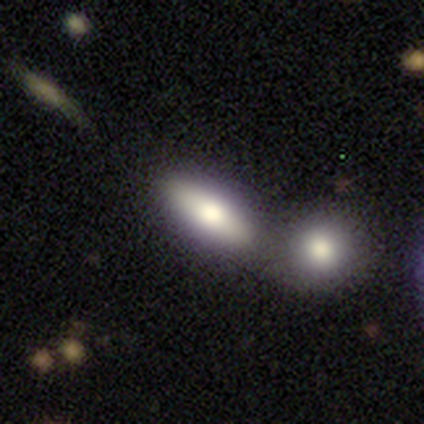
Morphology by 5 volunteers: Smooth or featured?
  - featured or disk: 60% *
  - smooth: 20%
  - star or artifact: 20%
Edge-on disk?
  - no: 67% *
  - yes: 33%
Bar?
  - weak: 50% * (tied)
  - no: 50% * (tied)
  - strong: 0%
Spiral arms?
  - no: 100% *
  - yes: 0%
Bulge size?
  - dominant: 100% *
  - large: 0%
  - moderate: 0%
  - small: 0%
  - none: 0%
Merging?
  - merger: 75% *
  - minor disturbance: 25%
  - none: 0%
  - major disturbance: 0%